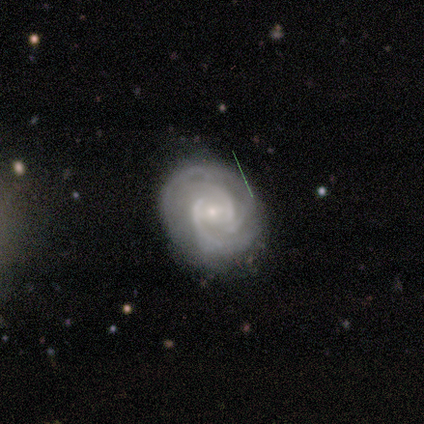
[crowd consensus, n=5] smooth-or-featured: featured or disk: 80% | smooth: 20% | star or artifact: 0%
  disk-edge-on: no: 75% | yes: 25%
    bar: weak: 67% | no: 33% | strong: 0%
    has-spiral-arms: yes: 100% | no: 0%
      spiral-winding: tight: 67% | medium: 33% | loose: 0%
      spiral-arm-count: 3: 67% | 2: 33% | 1: 0% | 4: 0% | more than 4: 0% | can't tell: 0%
    bulge-size: moderate: 67% | small: 33% | dominant: 0% | large: 0% | none: 0%
  merging: none: 100% | minor disturbance: 0% | major disturbance: 0% | merger: 0%